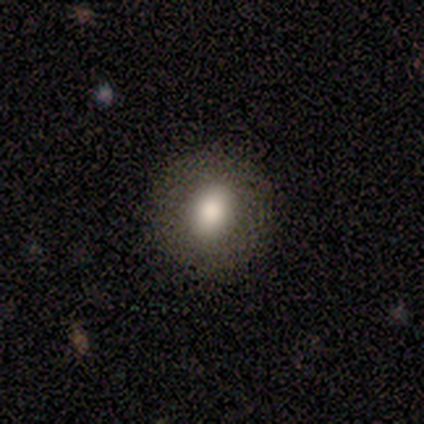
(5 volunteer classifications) smooth_or_featured: smooth (p=0.80) [alt: star or artifact p=0.20]
how_rounded: round (p=0.50) [tied with: in between p=0.50]
merging: none (p=0.75) [alt: minor disturbance p=0.25]